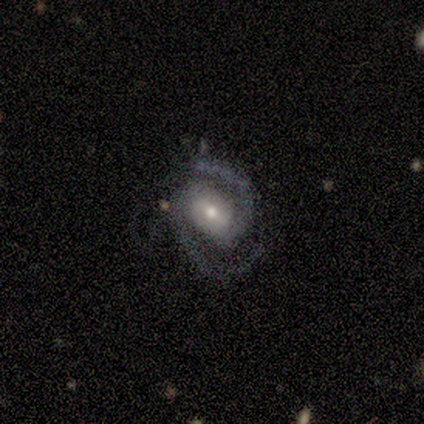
Smooth or featured? 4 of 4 (100%) said featured or disk. Edge-on disk? 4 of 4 (100%) said no. Bar? 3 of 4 (75%) said weak. Spiral arms? 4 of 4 (100%) said yes. Spiral winding? 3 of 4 (75%) said medium. Spiral arm count? 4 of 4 (100%) said 2. Bulge size? 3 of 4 (75%) said small. Merging? 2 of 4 (50%, tied with minor disturbance) said none.